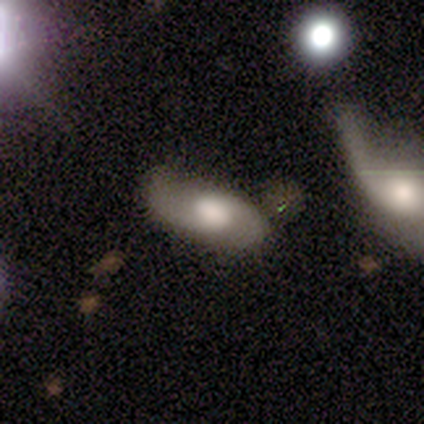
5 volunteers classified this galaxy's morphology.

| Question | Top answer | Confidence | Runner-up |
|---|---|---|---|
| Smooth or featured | featured or disk | 80% | star or artifact (20%) |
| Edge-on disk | no | 100% | — |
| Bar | no | 75% | weak (25%) |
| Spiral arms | yes | 75% | no (25%) |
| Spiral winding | loose | 100% | — |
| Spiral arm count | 2 | 100% | — |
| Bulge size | large | 50% | tied: moderate (50%) |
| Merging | none | 100% | — |